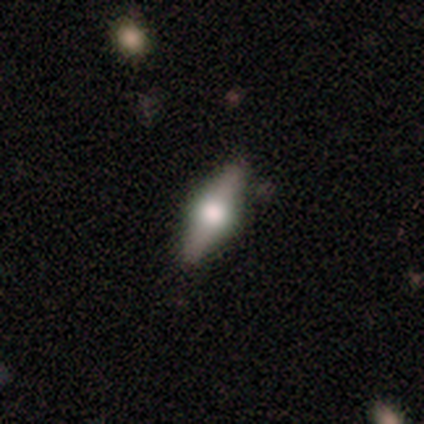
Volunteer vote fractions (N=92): This is likely a featured or disk galaxy (67%). It is clearly viewed edge-on (97%). Edge-on bulge: clearly rounded (95%). Merging: clearly none (94%).